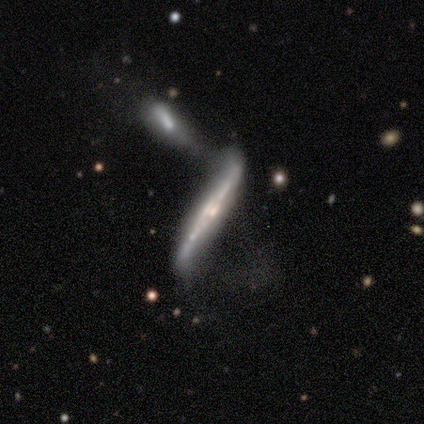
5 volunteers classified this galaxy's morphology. Smooth or featured?
  - featured or disk: 100% *
  - smooth: 0%
  - star or artifact: 0%
Edge-on disk?
  - yes: 100% *
  - no: 0%
Edge-on bulge?
  - boxy: 40% * (tied)
  - none: 40% * (tied)
  - rounded: 20%
Merging?
  - merger: 80% *
  - major disturbance: 20%
  - none: 0%
  - minor disturbance: 0%